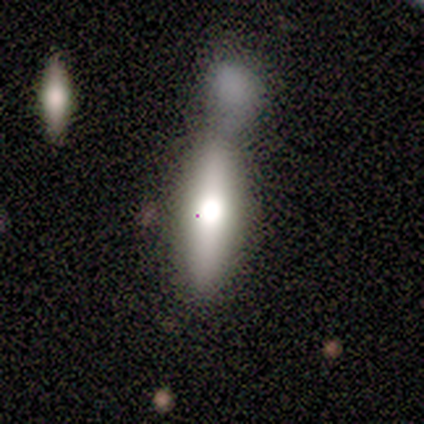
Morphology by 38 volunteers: Overall: smooth (84%). How rounded: cigar-shaped (66%; in between 34%). Merging: merger (68%).